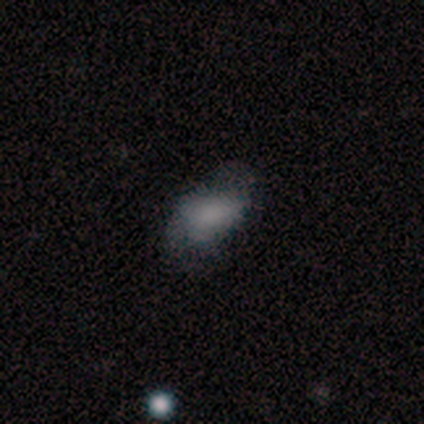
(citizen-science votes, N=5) smooth 60%, featured or disk 40%, star or artifact 0%. Down the decision tree: how rounded — in between (100%); merging — minor disturbance (60%).